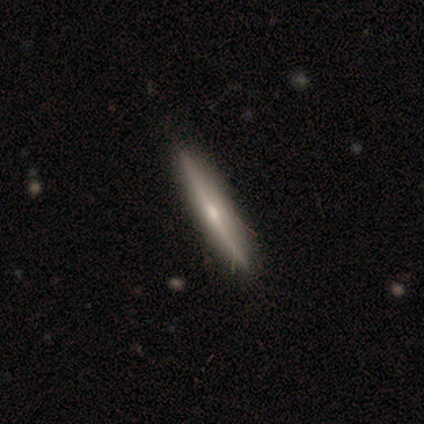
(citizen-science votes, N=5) Smooth or featured: featured or disk — 80% (smooth — 20%)
Edge-on disk: yes — 100%
Edge-on bulge: rounded — 100%
Merging: none — 100%